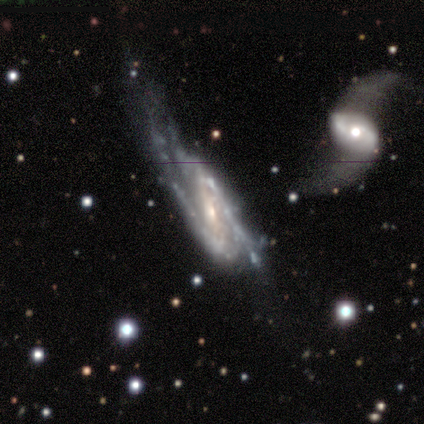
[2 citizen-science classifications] smooth-or-featured: featured or disk: 100% | smooth: 0% | star or artifact: 0%
  disk-edge-on: no: 100% | yes: 0%
    bar: strong: 50% (tied) | weak: 50% (tied) | no: 0%
    has-spiral-arms: yes: 100% | no: 0%
      spiral-winding: medium: 50% (tied) | loose: 50% (tied) | tight: 0%
      spiral-arm-count: 2: 100% | 1: 0% | 3: 0% | 4: 0% | more than 4: 0% | can't tell: 0%
    bulge-size: small: 100% | dominant: 0% | large: 0% | moderate: 0% | none: 0%
  merging: none: 100% | minor disturbance: 0% | major disturbance: 0% | merger: 0%